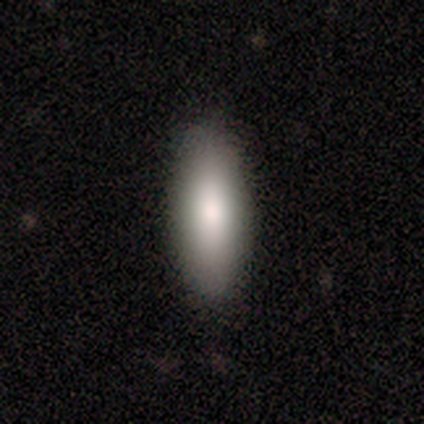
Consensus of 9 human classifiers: A smooth galaxy with no disk features (78%) that is in between round and cigar-shaped (86%). Merging: none (75%).